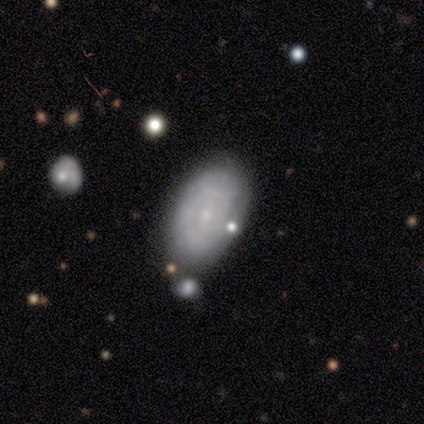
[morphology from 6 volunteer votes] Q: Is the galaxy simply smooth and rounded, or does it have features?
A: featured or disk — 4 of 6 (67%).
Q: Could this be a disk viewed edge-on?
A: no — 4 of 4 (100%).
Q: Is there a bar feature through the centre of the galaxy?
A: no — 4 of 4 (100%).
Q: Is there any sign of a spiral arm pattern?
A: yes — 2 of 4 (50%, tied with no).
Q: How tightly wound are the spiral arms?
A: tight — 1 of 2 (50%, tied with medium).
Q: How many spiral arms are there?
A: can't tell — 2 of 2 (100%).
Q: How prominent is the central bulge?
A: small — 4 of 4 (100%).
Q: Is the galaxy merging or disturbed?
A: none — 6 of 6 (100%).